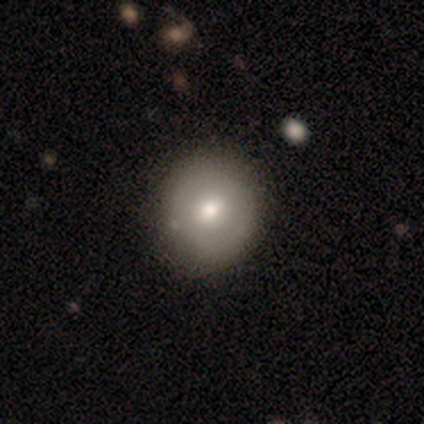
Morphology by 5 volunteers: This appears to be a smooth galaxy with no disk features (60%) that is round (67%). Merging: none (80%).